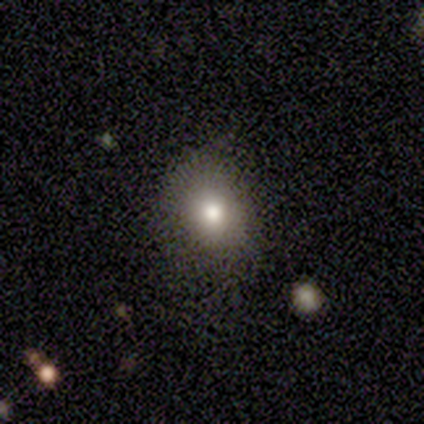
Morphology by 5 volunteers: This appears to be a smooth galaxy with no disk features (80%) that is round (75%). Merging: none (80%).